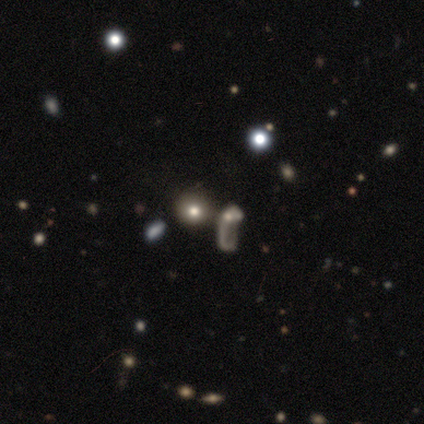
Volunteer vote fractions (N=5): Overall: star or artifact (80%).